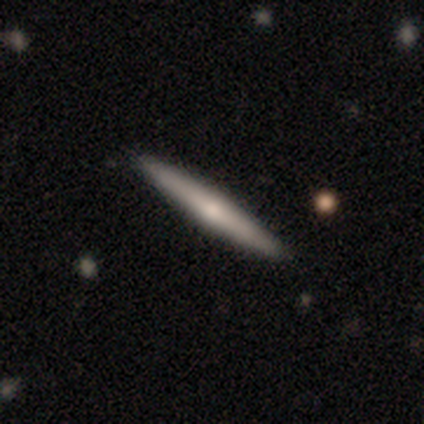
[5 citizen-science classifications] This is likely a featured or disk galaxy (60%). It is clearly viewed edge-on (100%). Edge-on bulge: likely rounded (67%). Merging: clearly none (100%).